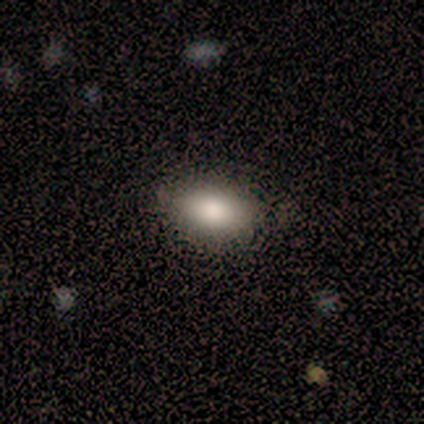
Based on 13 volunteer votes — Volunteers were most divided on "smooth or featured": smooth: 77%, star or artifact: 15%, featured or disk: 8%. More confident: merging — none (91%); how rounded — in between (90%).